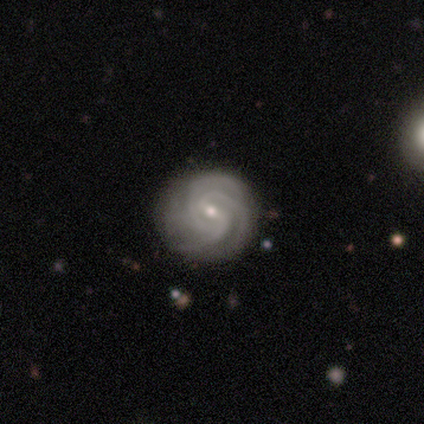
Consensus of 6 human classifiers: Overall: featured or disk (100%). Edge-on disk: no (100%). Bar: weak (67%; no 33%). Spiral arms: yes (100%). Spiral arm count: can't tell (50%; 3 33%). Spiral winding: tight (50%, tied with medium). Bulge size: moderate (50%, tied with small). Merging: none (50%; minor disturbance 33%).